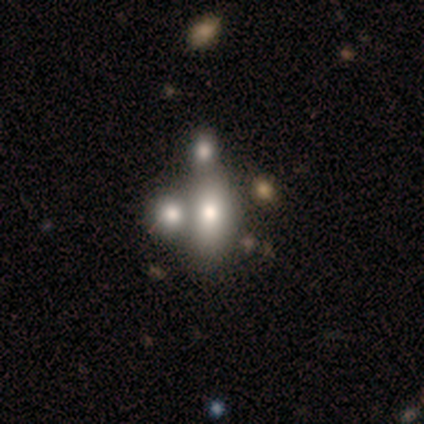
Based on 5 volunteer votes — Morphology: type=featured or disk (60%); edge-on=no (100%); bar=no (100%); spiral arms=no (100%); bulge=dominant (67%); merging=merger (60%).